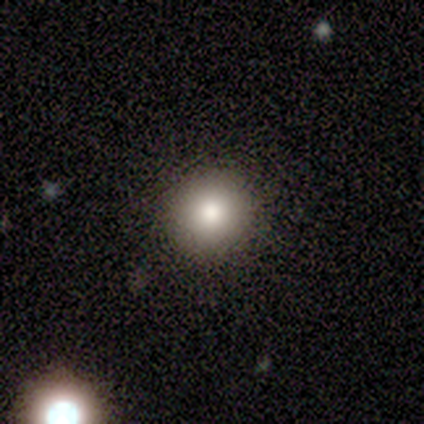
Smooth or featured? smooth (80%)
How rounded? round (100%)
Merging? none (100%)